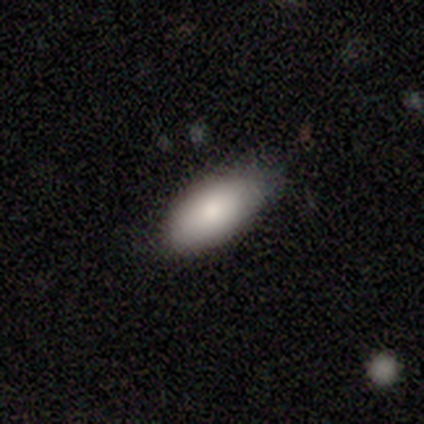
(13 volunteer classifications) This is clearly a smooth galaxy (85%). How rounded: clearly in between (82%). Merging: likely none (69%).